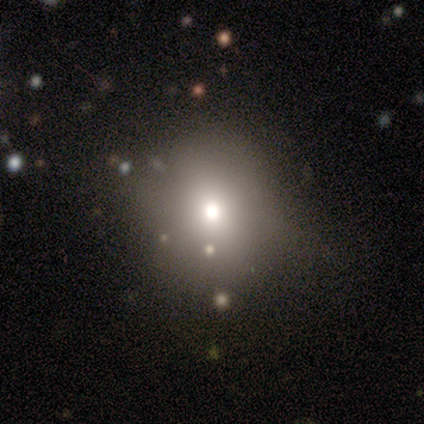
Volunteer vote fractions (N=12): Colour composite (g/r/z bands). It shows a smooth galaxy with no disk features (67%) that is round (88%). Merging: none (64%).